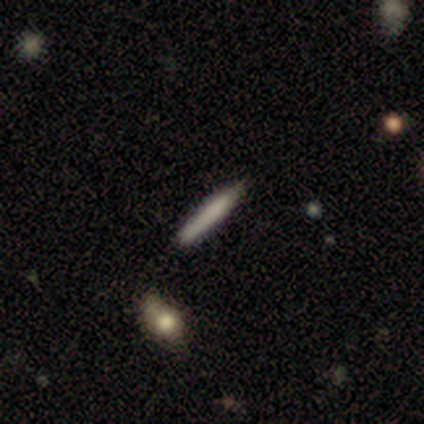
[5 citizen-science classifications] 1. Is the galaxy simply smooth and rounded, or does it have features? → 60% smooth, 40% featured or disk, 0% star or artifact.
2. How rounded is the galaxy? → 100% cigar-shaped, 0% round, 0% in between.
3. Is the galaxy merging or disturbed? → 60% none, 40% minor disturbance, 0% major disturbance, 0% merger.